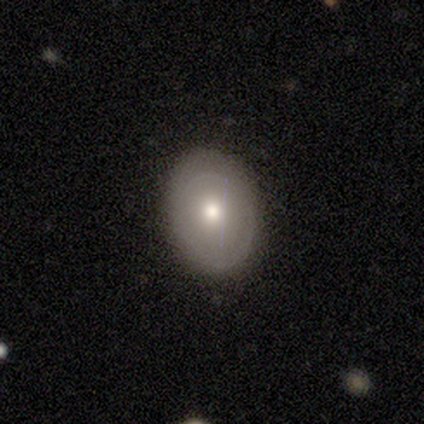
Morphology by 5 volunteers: Volunteers were most divided on "merging": none: 60%, minor disturbance: 20%, major disturbance: 20%, merger: 0%. More confident: smooth or featured — smooth (80%); how rounded — in between (75%).